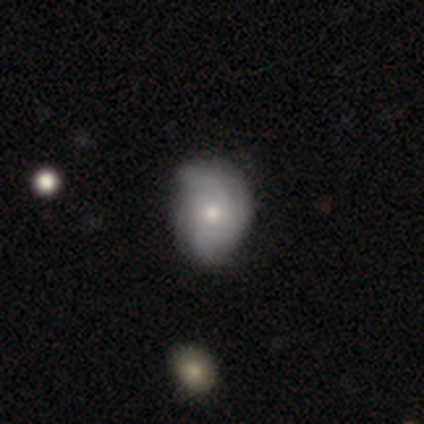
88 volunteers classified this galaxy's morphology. Smooth or featured?
  - featured or disk: 72% *
  - smooth: 19%
  - star or artifact: 9%
Edge-on disk?
  - no: 97% *
  - yes: 3%
Bar?
  - no: 85% *
  - weak: 11%
  - strong: 3%
Spiral arms?
  - yes: 93% *
  - no: 7%
Spiral winding?
  - tight: 61% *
  - medium: 26%
  - loose: 12%
Spiral arm count?
  - can't tell: 32% *
  - 4: 28%
  - 3: 21%
  - 2: 18%
  - 1: 2%
  - more than 4: 0%
Bulge size?
  - moderate: 61% *
  - small: 39%
  - dominant: 0%
  - large: 0%
  - none: 0%
Merging?
  - none: 74% *
  - minor disturbance: 24%
  - major disturbance: 1%
  - merger: 1%